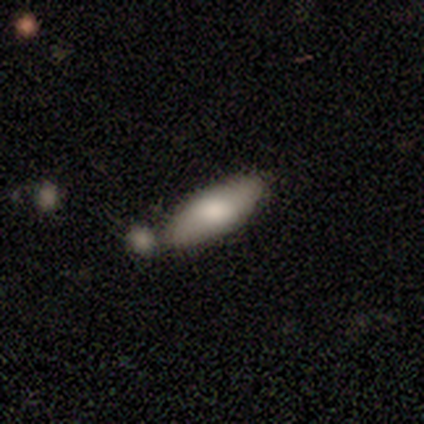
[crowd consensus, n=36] Morphology: type=smooth (78%); roundness=in between (64%); merging=none (55%).